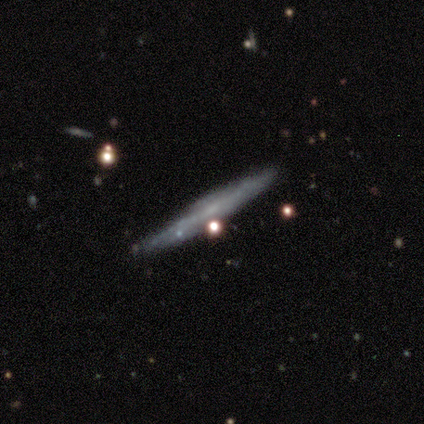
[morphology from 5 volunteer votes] Smooth or featured?
  - featured or disk: 80% *
  - smooth: 20%
  - star or artifact: 0%
Edge-on disk?
  - yes: 75% *
  - no: 25%
Edge-on bulge?
  - none: 100% *
  - boxy: 0%
  - rounded: 0%
Merging?
  - none: 60% *
  - minor disturbance: 40%
  - major disturbance: 0%
  - merger: 0%